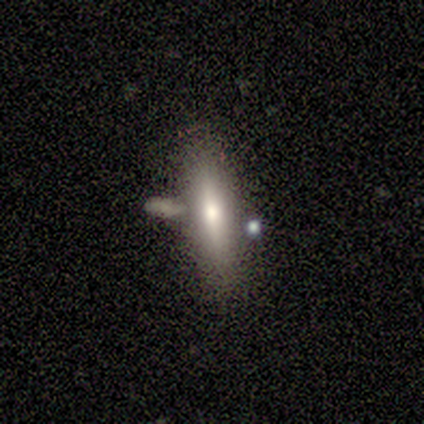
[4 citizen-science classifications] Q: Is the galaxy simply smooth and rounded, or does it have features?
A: smooth — 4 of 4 (100%).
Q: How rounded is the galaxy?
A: in between — 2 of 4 (50%, tied with cigar-shaped).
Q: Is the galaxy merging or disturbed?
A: none — 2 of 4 (50%).